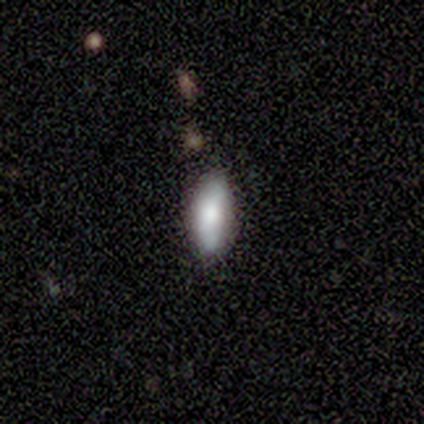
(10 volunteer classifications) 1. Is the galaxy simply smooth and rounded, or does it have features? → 80% smooth, 20% featured or disk, 0% star or artifact.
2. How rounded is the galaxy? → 100% in between, 0% round, 0% cigar-shaped.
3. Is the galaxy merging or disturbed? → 80% none, 10% minor disturbance, 10% merger, 0% major disturbance.